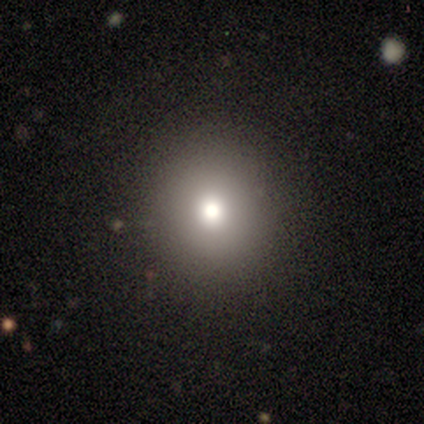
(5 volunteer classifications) This appears to be a smooth galaxy with no disk features (100%) that is round (80%). Merging: none (80%).